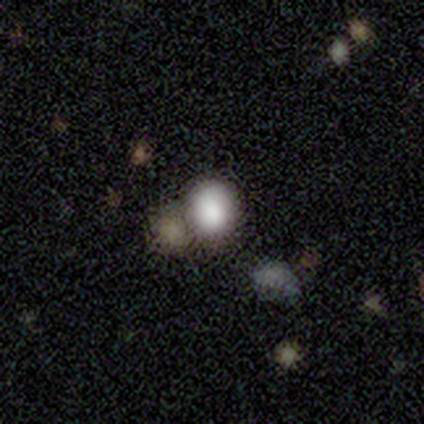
Smooth or featured?
  - smooth: 40% * (tied)
  - featured or disk: 40% * (tied)
  - star or artifact: 20%
How rounded?
  - round: 100% *
  - in between: 0%
  - cigar-shaped: 0%
Merging?
  - none: 50% * (tied)
  - merger: 50% * (tied)
  - minor disturbance: 0%
  - major disturbance: 0%